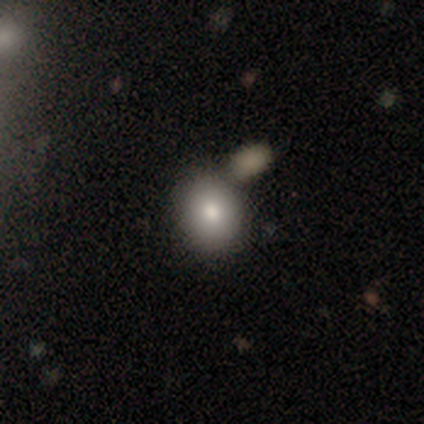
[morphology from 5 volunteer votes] A smooth galaxy with no disk features (100%) that is round (60%).

Vote fractions:
- Smooth or featured? smooth: 100% / featured or disk: 0% / star or artifact: 0%
- How rounded? round: 60% / in between: 40% / cigar-shaped: 0%
- Merging? none: 60% / merger: 40% / minor disturbance: 0% / major disturbance: 0%